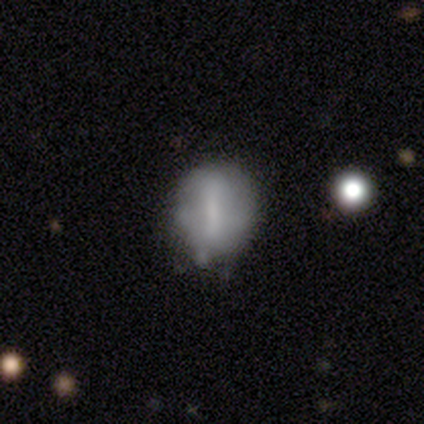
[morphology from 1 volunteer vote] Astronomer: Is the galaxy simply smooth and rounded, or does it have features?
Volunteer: featured or disk — 100%.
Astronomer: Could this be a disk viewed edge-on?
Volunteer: no — 100%.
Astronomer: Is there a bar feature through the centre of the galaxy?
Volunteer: weak — 100%.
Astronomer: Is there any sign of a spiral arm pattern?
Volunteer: no — 100%.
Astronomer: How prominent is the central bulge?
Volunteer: small — 100%.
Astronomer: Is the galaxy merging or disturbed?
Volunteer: none — 100%.